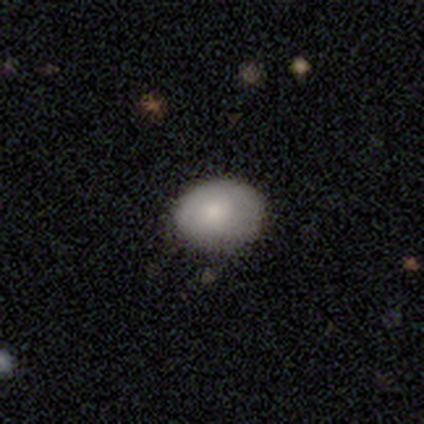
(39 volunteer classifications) Overall: smooth (74%). How rounded: in between (69%; round 31%). Merging: none (55%).